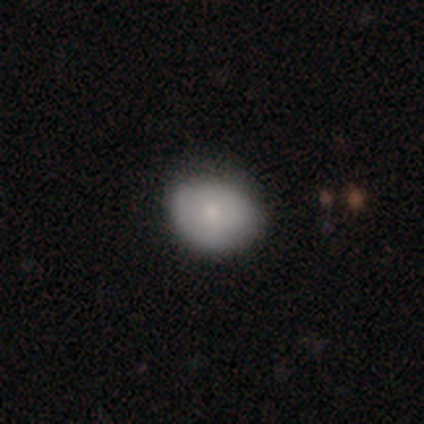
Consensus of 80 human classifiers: A smooth galaxy with no disk features (79%) that is round (54%).

Vote fractions:
- Smooth or featured? smooth: 79% / featured or disk: 14% / star or artifact: 8%
- How rounded? round: 54% / in between: 46% / cigar-shaped: 0%
- Merging? none: 39% / minor disturbance: 12% / merger: 4% / major disturbance: 1%